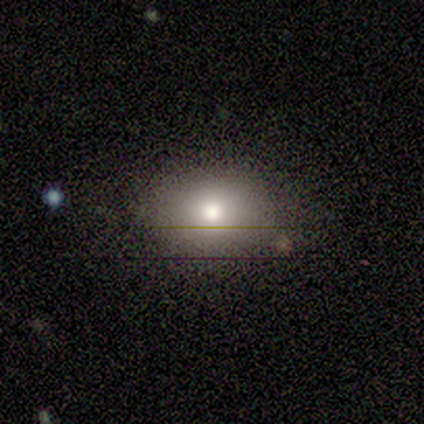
Q: Smooth or featured?
A: smooth (60%); runner-up: featured or disk (20%)
Q: How rounded?
A: round (67%); runner-up: in between (33%)
Q: Merging?
A: none (100%)